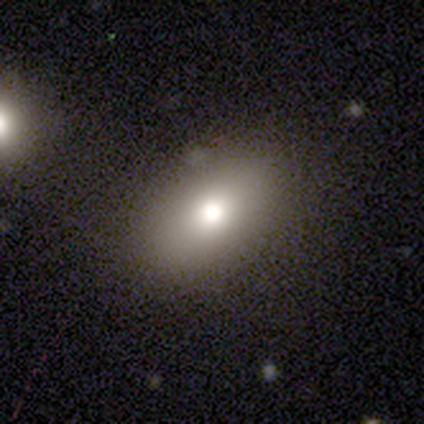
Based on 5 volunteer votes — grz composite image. It shows a smooth galaxy with no disk features (60%) that is in between round and cigar-shaped (100%). Merging: none (75%).